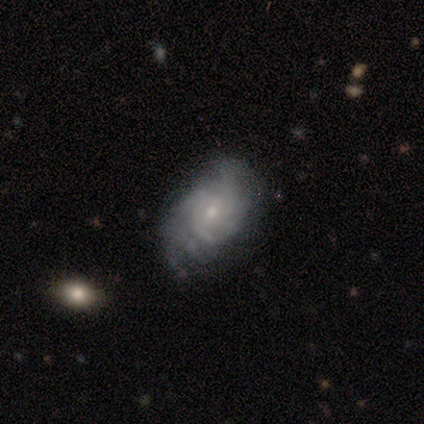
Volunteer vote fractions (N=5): Q: Smooth or featured?
A: featured or disk (80%); runner-up: smooth (20%)
Q: Edge-on disk?
A: no (100%)
Q: Bar?
A: no (75%); runner-up: weak (25%)
Q: Spiral arms?
A: yes (75%); runner-up: no (25%)
Q: Spiral winding?
A: tight (100%)
Q: Spiral arm count?
A: 3 (67%); runner-up: can't tell (33%)
Q: Bulge size?
A: small (75%); runner-up: moderate (25%)
Q: Merging?
A: none (60%); runner-up: minor disturbance (20%)